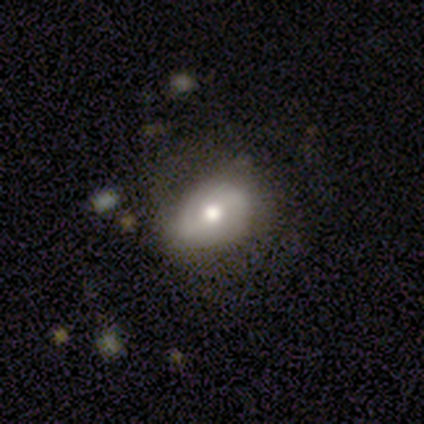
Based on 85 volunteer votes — smooth-or-featured: smooth: 47% (tied) | featured or disk: 47% (tied) | star or artifact: 6%
  how-rounded: in between: 55% | round: 45% | cigar-shaped: 0%
  merging: none: 55% | minor disturbance: 38% | major disturbance: 8% | merger: 0%